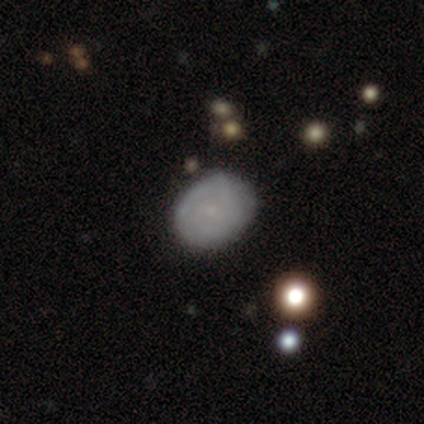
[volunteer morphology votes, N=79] Volunteers were most divided on "smooth or featured": featured or disk: 46%, smooth: 43%, star or artifact: 11%. More confident: edge-on disk — no (100%); spiral winding — tight (84%); bar — no (83%); spiral arms — yes (69%); spiral arm count — can't tell (68%); bulge size — small (61%); merging — none (53%).